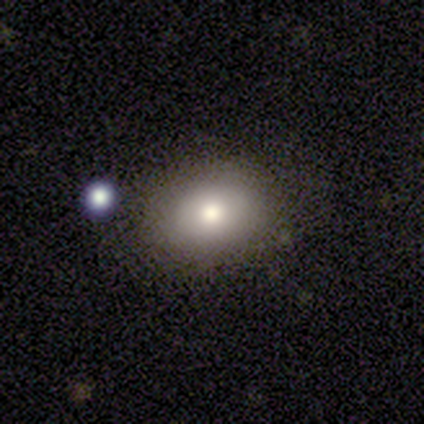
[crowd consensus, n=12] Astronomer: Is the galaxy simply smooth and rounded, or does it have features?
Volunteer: smooth — 75%.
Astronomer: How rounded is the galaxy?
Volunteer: in between — 56% (runner-up: round, 44%).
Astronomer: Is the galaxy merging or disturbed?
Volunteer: none — 83%.